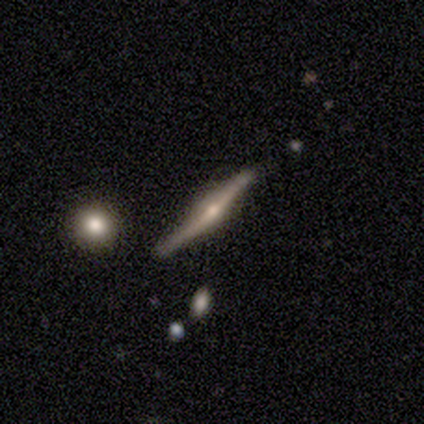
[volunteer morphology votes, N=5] Smooth or featured: featured or disk — 80% (smooth — 20%)
Edge-on disk: yes — 100%
Edge-on bulge: rounded — 75% (none — 25%)
Merging: none — 80% (minor disturbance — 20%)